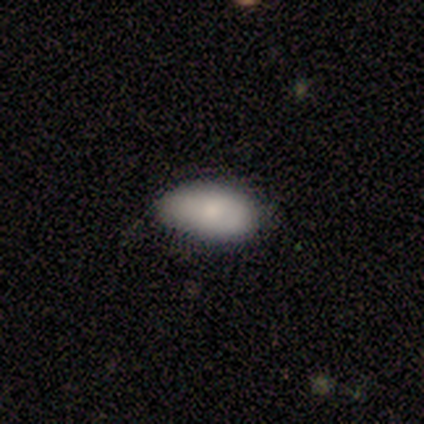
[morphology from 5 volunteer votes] This is clearly a smooth galaxy (80%). How rounded: clearly in between (100%). Merging: clearly none (100%).